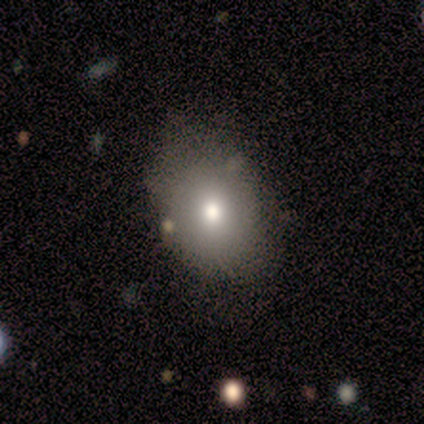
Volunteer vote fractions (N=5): A smooth galaxy with no disk features (80%) that is round (50%, tied with in between).

Vote fractions:
- Smooth or featured? smooth: 80% / star or artifact: 20% / featured or disk: 0%
- How rounded? round: 50% (tied) / in between: 50% (tied) / cigar-shaped: 0%
- Merging? none: 100% / minor disturbance: 0% / major disturbance: 0% / merger: 0%